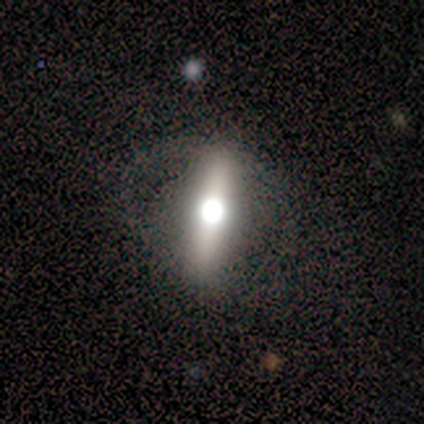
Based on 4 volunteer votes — Q: Smooth or featured?
A: featured or disk (50%); runner-up: smooth (25%)
Q: Edge-on disk?
A: yes (100%)
Q: Edge-on bulge?
A: rounded (100%)
Q: Merging?
A: major disturbance (67%); runner-up: none (33%)